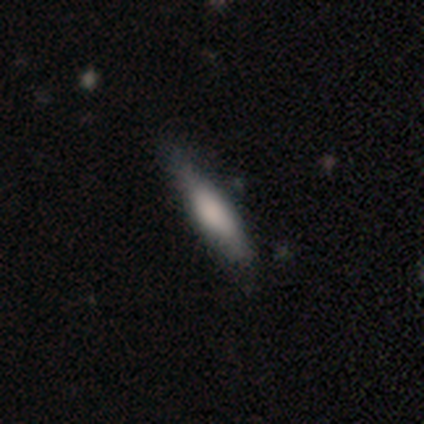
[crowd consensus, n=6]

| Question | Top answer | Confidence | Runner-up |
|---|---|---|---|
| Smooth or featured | smooth | 67% | featured or disk (33%) |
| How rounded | cigar-shaped | 75% | in between (25%) |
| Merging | none | 83% | minor disturbance (17%) |